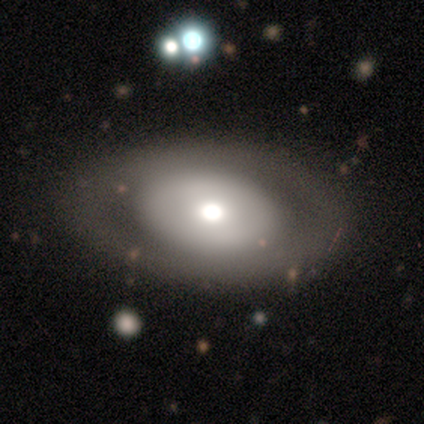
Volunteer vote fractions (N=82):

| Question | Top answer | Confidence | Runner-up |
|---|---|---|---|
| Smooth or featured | featured or disk | 55% | smooth (44%) |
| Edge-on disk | no | 93% | yes (7%) |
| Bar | no | 83% | weak (10%) |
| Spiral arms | no | 90% | yes (10%) |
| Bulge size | moderate | 52% | large (31%) |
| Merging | none | 46% | minor disturbance (7%) |